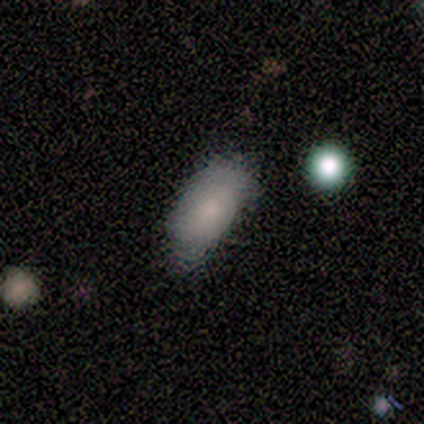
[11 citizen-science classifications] Smooth or featured? smooth (82%)
How rounded? in between (89%)
Merging? none (64%)